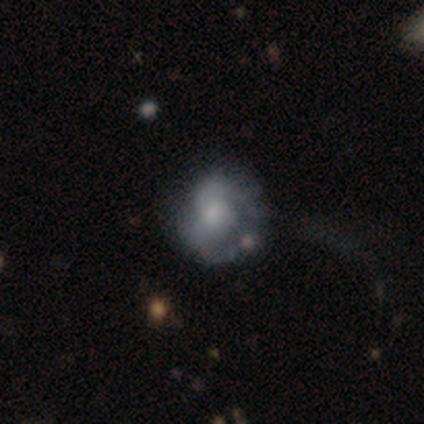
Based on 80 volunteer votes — This appears to be a featured or disk galaxy (65%) with no bar (78%), 2 (65%) loose (35%) spiral arms (62%) and a small central bulge (50%). Merging: none (22%).